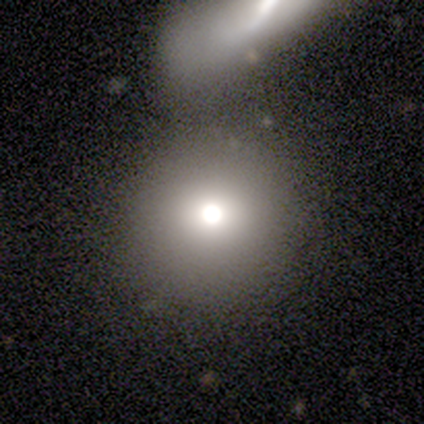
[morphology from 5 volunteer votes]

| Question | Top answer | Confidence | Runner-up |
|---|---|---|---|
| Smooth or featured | smooth | 80% | featured or disk (20%) |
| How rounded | round | 100% | — |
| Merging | none | 80% | merger (20%) |